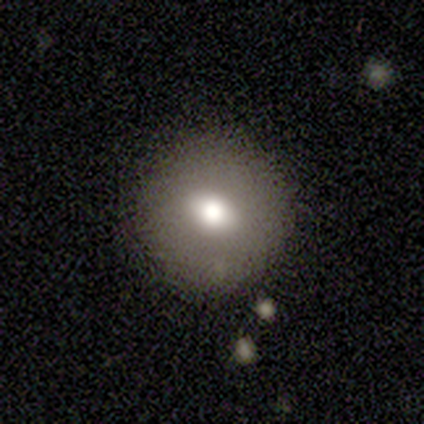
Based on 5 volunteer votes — A smooth galaxy with no disk features (80%) that is round (100%). Merging: none (75%).